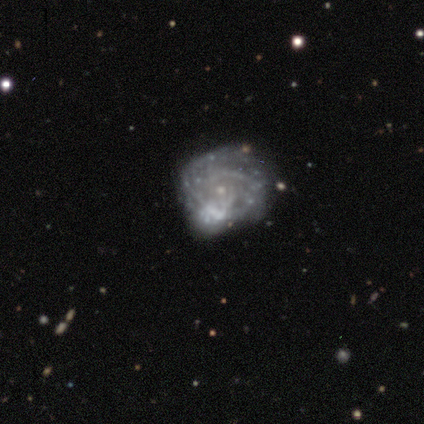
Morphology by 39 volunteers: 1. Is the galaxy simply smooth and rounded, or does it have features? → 72% featured or disk, 15% smooth, 13% star or artifact.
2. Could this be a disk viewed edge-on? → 100% no, 0% yes.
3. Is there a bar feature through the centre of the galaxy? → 89% no, 7% weak, 4% strong.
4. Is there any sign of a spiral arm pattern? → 75% yes, 25% no.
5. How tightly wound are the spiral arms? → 52% tight, 38% medium, 10% loose.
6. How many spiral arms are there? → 52% can't tell, 29% 2, 14% 3, 5% more than 4, 0% 1, 0% 4.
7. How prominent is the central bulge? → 61% small, 29% none, 7% moderate, 4% large, 0% dominant.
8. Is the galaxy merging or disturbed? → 35% none, 32% major disturbance, 18% merger, 15% minor disturbance.